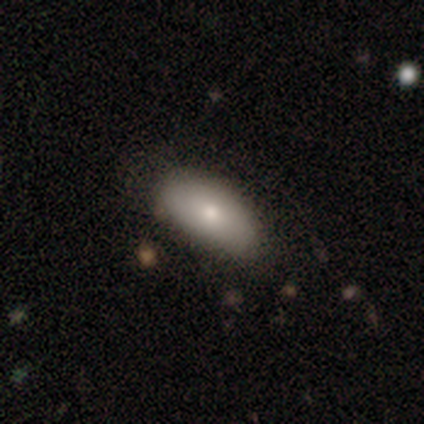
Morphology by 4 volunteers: star or artifact 50%, smooth 25%, featured or disk 25%.